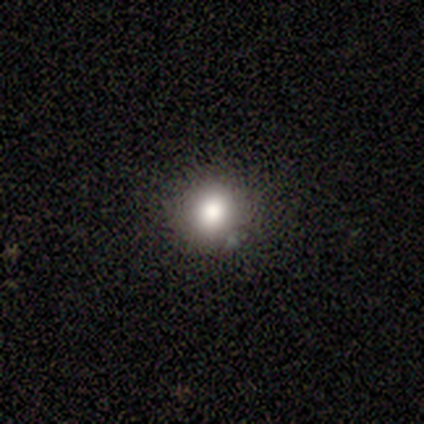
smooth_or_featured: smooth (p=0.75) [alt: star or artifact p=0.25]
how_rounded: round (p=1.00)
merging: none (p=0.67) [alt: minor disturbance p=0.33]